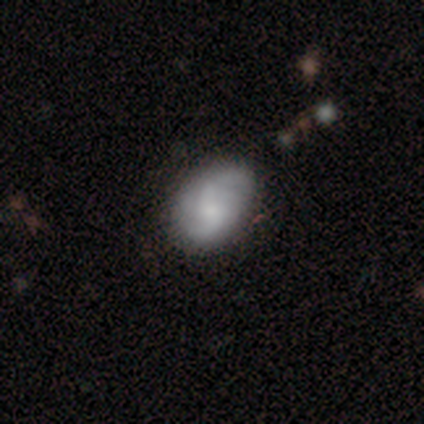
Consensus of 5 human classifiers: This appears to be a smooth galaxy with no disk features (40%, tied with featured or disk) that is round (50%, tied with in between). Merging: none (75%).